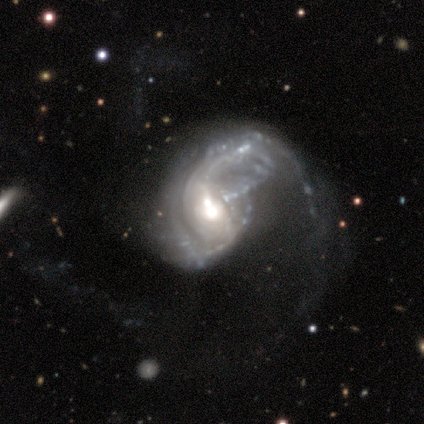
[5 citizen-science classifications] A featured or disk galaxy (100%) with no bar (100%), 1 (40%, tied with can't tell) medium (60%) spiral arms (100%) and a moderate central bulge (60%). Merging: major disturbance (40%, tied with merger).